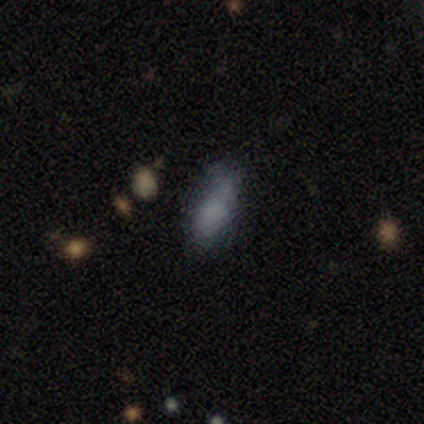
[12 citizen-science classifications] This appears to be a smooth galaxy with no disk features (50%) that is in between round and cigar-shaped (67%). Merging: none (82%).